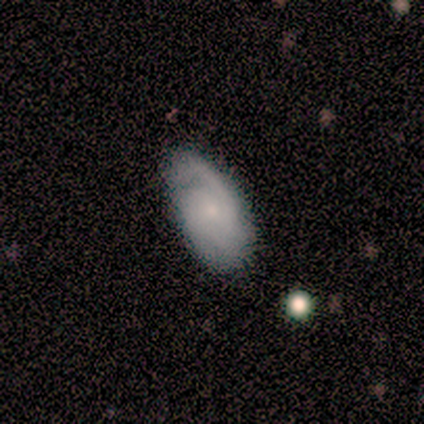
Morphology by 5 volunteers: Smooth or featured: featured or disk — 60% (smooth — 40%)
Edge-on disk: no — 100%
Bar: no — 100%
Spiral arms: yes — 100%
Spiral winding: loose — 67% (medium — 33%)
Spiral arm count: 1 — 67% (can't tell — 33%)
Bulge size: small — 67% (moderate — 33%)
Merging: none — 100%